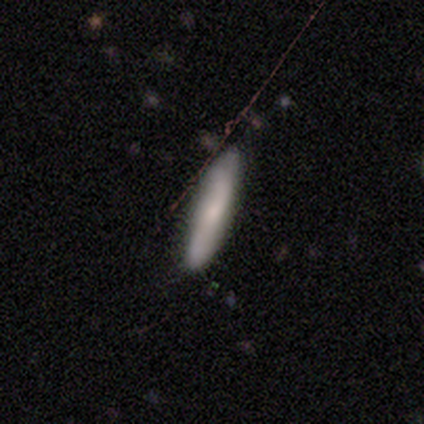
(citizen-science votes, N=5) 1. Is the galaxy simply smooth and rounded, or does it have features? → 40% smooth (tied), 40% featured or disk (tied), 20% star or artifact.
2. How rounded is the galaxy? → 100% cigar-shaped, 0% round, 0% in between.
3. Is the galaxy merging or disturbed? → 100% none, 0% minor disturbance, 0% major disturbance, 0% merger.